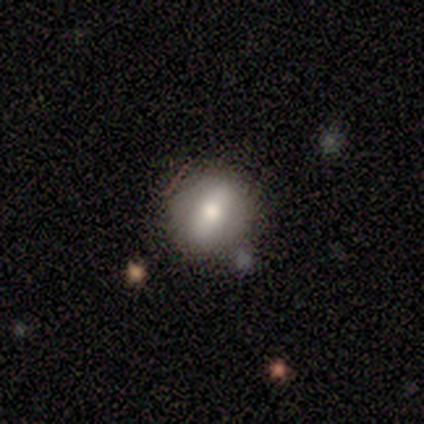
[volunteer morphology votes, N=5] Smooth or featured? smooth (40%, tied with featured or disk)
How rounded? round (100%)
Merging? none (75%)